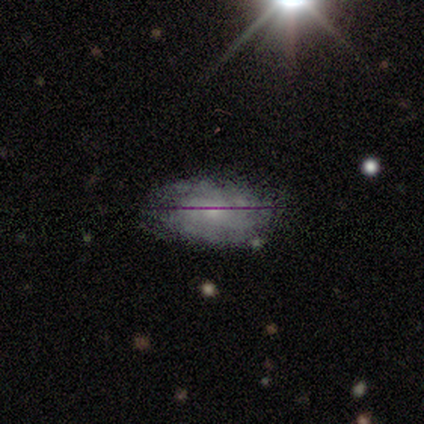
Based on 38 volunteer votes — smooth-or-featured: featured or disk: 68% | smooth: 21% | star or artifact: 11%
  disk-edge-on: no: 92% | yes: 8%
    bar: no: 88% | weak: 12% | strong: 0%
    has-spiral-arms: yes: 88% | no: 12%
      spiral-winding: tight: 67% | medium: 24% | loose: 10%
      spiral-arm-count: can't tell: 67% | more than 4: 24% | 3: 10% | 1: 0% | 2: 0% | 4: 0%
    bulge-size: small: 67% | moderate: 33% | dominant: 0% | large: 0% | none: 0%
  merging: none: 94% | minor disturbance: 3% | major disturbance: 3% | merger: 0%